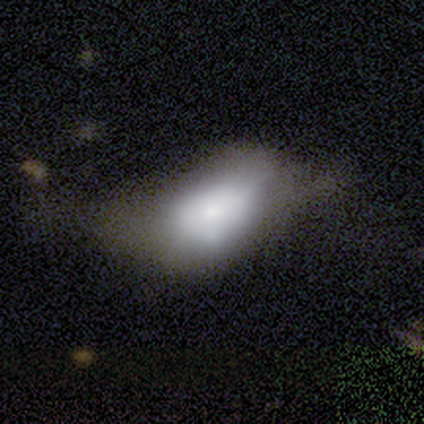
smooth_or_featured: smooth (p=0.72) [alt: featured or disk p=0.26]
how_rounded: in between (p=0.96) [alt: round p=0.04]
merging: major disturbance (p=0.37) [alt: minor disturbance p=0.29]